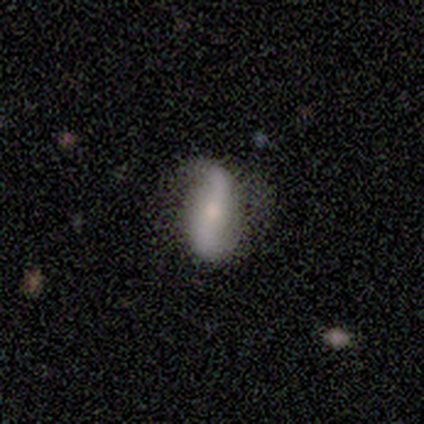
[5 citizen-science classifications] smooth-or-featured: featured or disk: 60% | smooth: 20% | star or artifact: 20%
  disk-edge-on: no: 100% | yes: 0%
    bar: strong: 33% (tied) | weak: 33% (tied) | no: 33% (tied)
    has-spiral-arms: yes: 100% | no: 0%
      spiral-winding: medium: 67% | loose: 33% | tight: 0%
      spiral-arm-count: 2: 100% | 1: 0% | 3: 0% | 4: 0% | more than 4: 0% | can't tell: 0%
    bulge-size: small: 100% | dominant: 0% | large: 0% | moderate: 0% | none: 0%
  merging: none: 50% (tied) | minor disturbance: 50% (tied) | major disturbance: 0% | merger: 0%